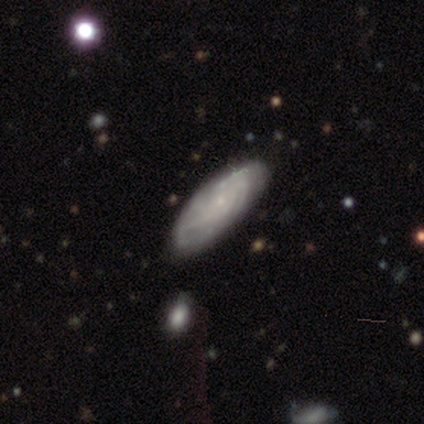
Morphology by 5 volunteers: type=featured or disk (60%); edge-on=no (100%); bar=no (100%); spiral arms=yes (100%); winding=medium (67%); arm count=can't tell (67%); bulge=small (67%); merging=none (60%).